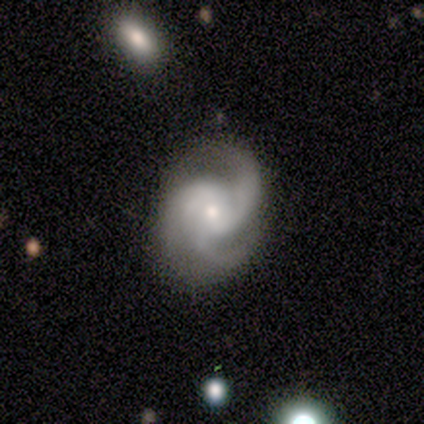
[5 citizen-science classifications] This is clearly a featured or disk galaxy (100%). It is clearly not viewed edge-on (100%). Bar: likely no (60%). Spiral arm pattern: clearly yes (100%). Spiral arm count: clearly 3 (80%). Spiral winding: likely medium (60%). Central bulge: likely small (60%). Merging: likely none (60%).